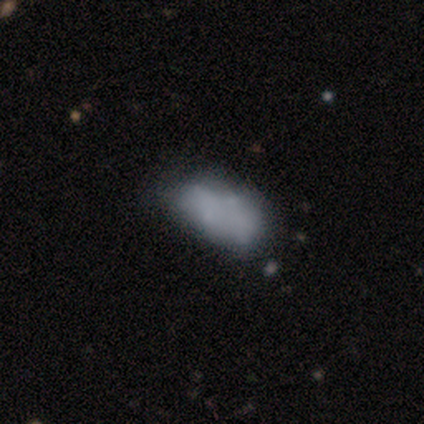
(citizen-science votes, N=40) Smooth or featured?
  - featured or disk: 50% *
  - smooth: 45%
  - star or artifact: 5%
Edge-on disk?
  - no: 100% *
  - yes: 0%
Bar?
  - no: 100% *
  - strong: 0%
  - weak: 0%
Spiral arms?
  - no: 95% *
  - yes: 5%
Bulge size?
  - none: 90% *
  - small: 10%
  - dominant: 0%
  - large: 0%
  - moderate: 0%
Merging?
  - none: 26% *
  - major disturbance: 18%
  - minor disturbance: 13%
  - merger: 13%